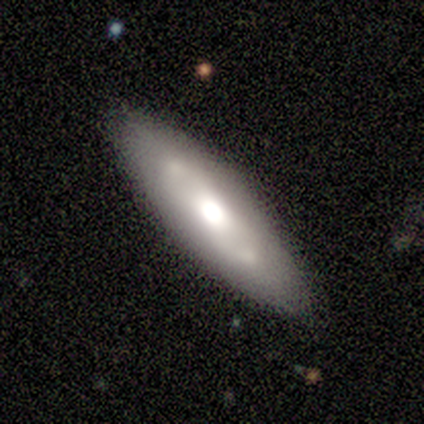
This is likely a smooth galaxy (67%). How rounded: possibly in between (50%, tied with cigar-shaped). Merging: likely minor disturbance (67%).